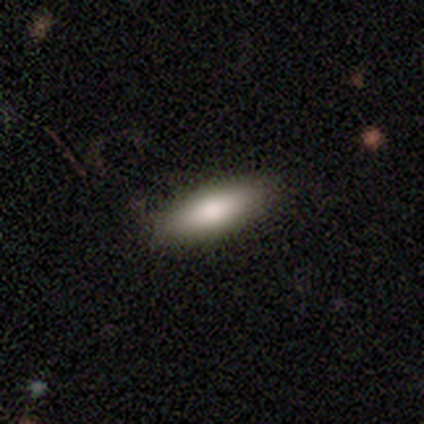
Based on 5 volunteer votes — Smooth or featured? 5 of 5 (100%) said smooth. How rounded? 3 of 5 (60%) said cigar-shaped. Merging? 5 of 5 (100%) said none.